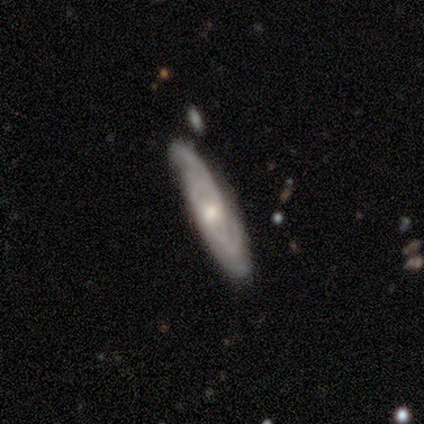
Q: Smooth or featured?
A: featured or disk (75%); runner-up: star or artifact (25%)
Q: Edge-on disk?
A: no (67%); runner-up: yes (33%)
Q: Bar?
A: no (100%)
Q: Spiral arms?
A: yes (100%)
Q: Spiral winding?
A: tight (100%)
Q: Spiral arm count?
A: 2 (50%); tied with: can't tell (50%)
Q: Bulge size?
A: moderate (50%); tied with: small (50%)
Q: Merging?
A: none (67%); runner-up: minor disturbance (33%)